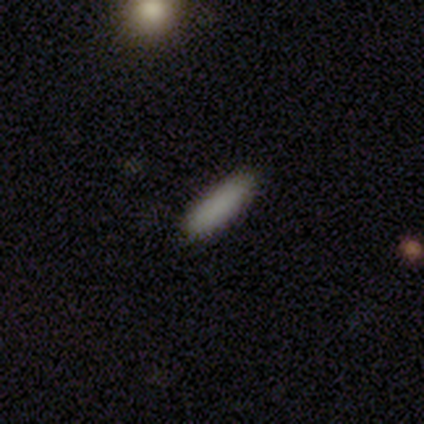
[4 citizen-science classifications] Smooth or featured: smooth — 100%
How rounded: in between — 50% (tied with cigar-shaped — 50%)
Merging: none — 75% (minor disturbance — 25%)